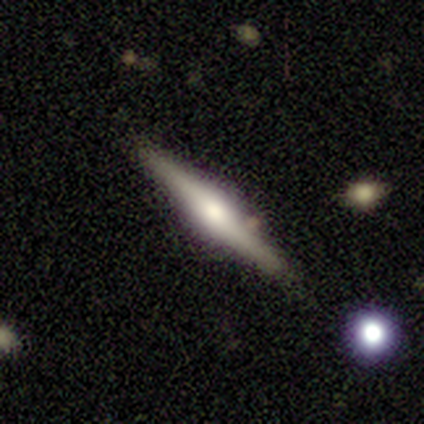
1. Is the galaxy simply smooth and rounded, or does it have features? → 100% featured or disk, 0% smooth, 0% star or artifact.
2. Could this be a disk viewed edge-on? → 100% yes, 0% no.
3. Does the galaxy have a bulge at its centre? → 100% rounded, 0% boxy, 0% none.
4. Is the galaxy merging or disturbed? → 100% none, 0% minor disturbance, 0% major disturbance, 0% merger.